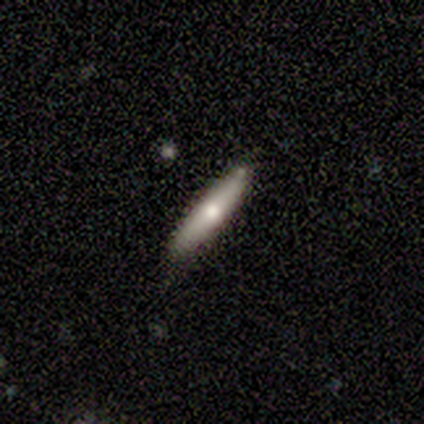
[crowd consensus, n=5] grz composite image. It shows a smooth galaxy with no disk features (60%) that is cigar-shaped (100%). Merging: none (100%).